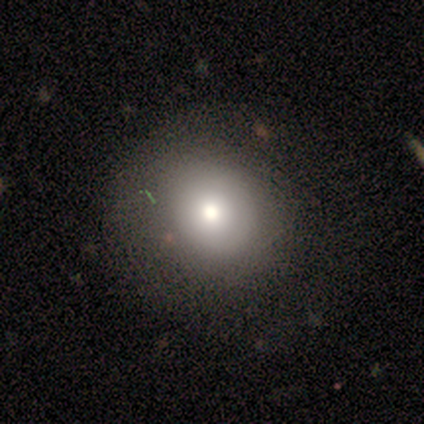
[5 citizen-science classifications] smooth-or-featured: smooth: 80% | featured or disk: 20% | star or artifact: 0%
  how-rounded: round: 100% | in between: 0% | cigar-shaped: 0%
  merging: none: 100% | minor disturbance: 0% | major disturbance: 0% | merger: 0%